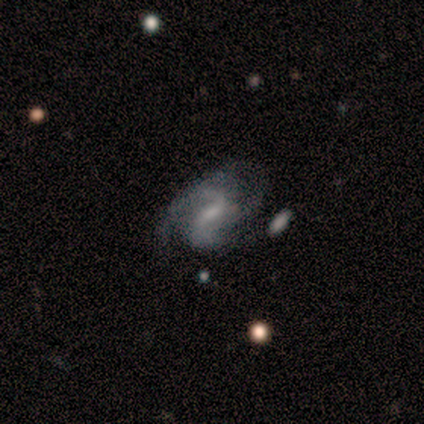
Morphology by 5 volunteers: Volunteers were most divided on "spiral winding" (2-way tie): medium: 50%, loose: 50%, tight: 0%. Remaining: edge-on disk — no (100%); spiral arms — yes (100%); spiral arm count — 2 (100%); smooth or featured — featured or disk (80%); bulge size — none (75%); bar — no (50%); merging — major disturbance (40%).